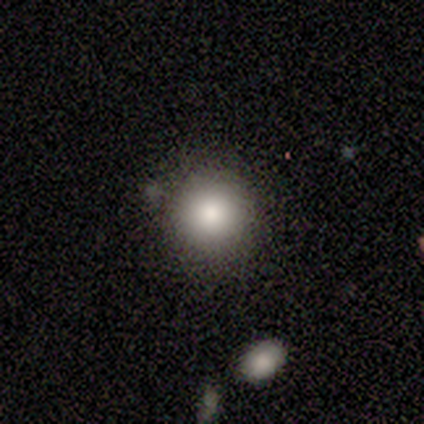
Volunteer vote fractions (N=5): Smooth or featured: smooth — 80% (star or artifact — 20%)
How rounded: round — 100%
Merging: none — 50% (tied with minor disturbance — 50%)